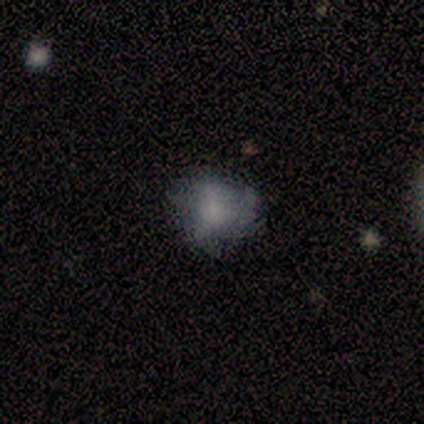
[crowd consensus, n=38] Morphology: type=smooth (71%); roundness=round (74%); merging=none (62%).